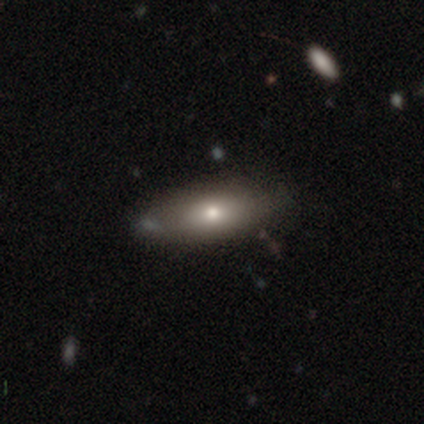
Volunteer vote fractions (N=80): Volunteers were most divided on "merging": none: 36%, minor disturbance: 13%, merger: 5%, major disturbance: 0%. More confident: how rounded — in between (85%); smooth or featured — smooth (74%).